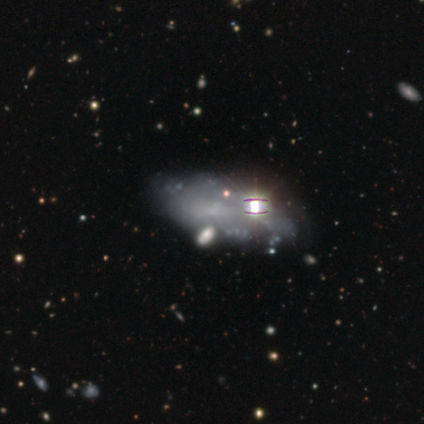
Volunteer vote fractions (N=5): A smooth galaxy with no disk features (40%, tied with featured or disk) that is in between round and cigar-shaped (100%).

Vote fractions:
- Smooth or featured? smooth: 40% (tied) / featured or disk: 40% (tied) / star or artifact: 20%
- How rounded? in between: 100% / round: 0% / cigar-shaped: 0%
- Merging? none: 50% (tied) / major disturbance: 50% (tied) / minor disturbance: 0% / merger: 0%